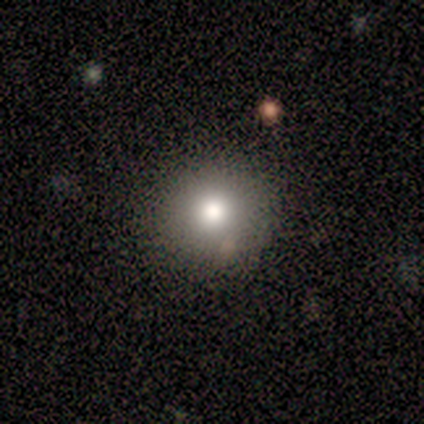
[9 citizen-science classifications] Overall: smooth (89%). How rounded: round (100%). Merging: none (88%).